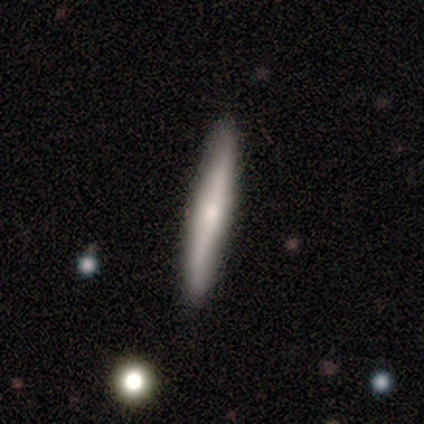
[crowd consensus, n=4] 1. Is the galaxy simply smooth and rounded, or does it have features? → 50% smooth, 25% featured or disk, 25% star or artifact.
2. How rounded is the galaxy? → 100% cigar-shaped, 0% round, 0% in between.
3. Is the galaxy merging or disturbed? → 67% none, 33% minor disturbance, 0% major disturbance, 0% merger.